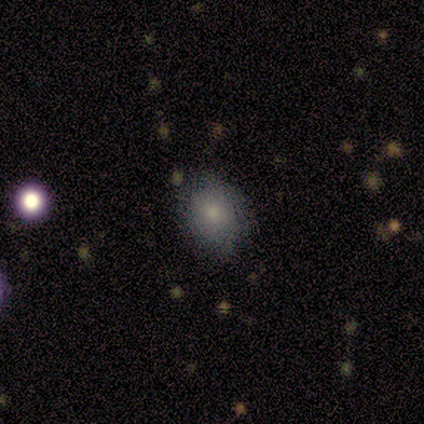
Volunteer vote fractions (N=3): smooth_or_featured: smooth (p=1.00)
how_rounded: round (p=0.67) [alt: in between p=0.33]
merging: none (p=0.67) [alt: minor disturbance p=0.33]